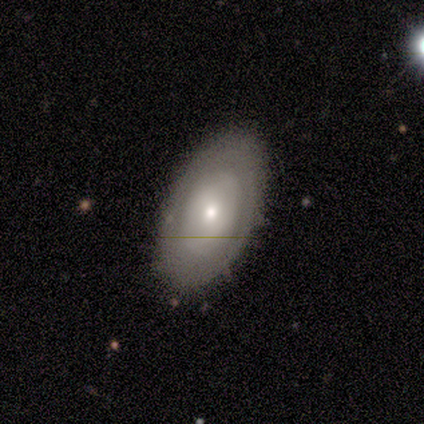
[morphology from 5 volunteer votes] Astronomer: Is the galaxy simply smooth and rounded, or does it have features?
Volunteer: featured or disk — 80%.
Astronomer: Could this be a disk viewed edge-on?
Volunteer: no — 100%.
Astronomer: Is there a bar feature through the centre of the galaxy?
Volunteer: weak — 50%, tied with no at 50%.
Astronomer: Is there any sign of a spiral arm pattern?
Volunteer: yes — 75%.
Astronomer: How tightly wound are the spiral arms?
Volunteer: tight — 100%.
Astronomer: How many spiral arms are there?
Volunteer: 2 — 67%.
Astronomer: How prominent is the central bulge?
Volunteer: small — 75%.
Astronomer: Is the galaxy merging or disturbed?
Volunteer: none — 80%.